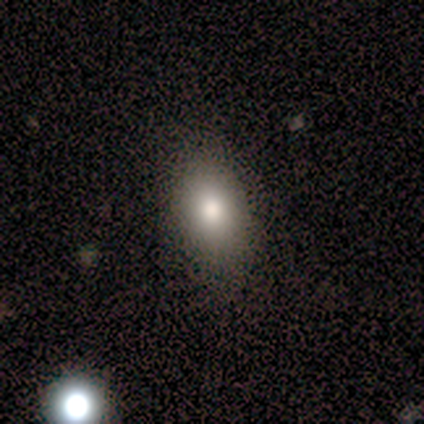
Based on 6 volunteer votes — This appears to be a smooth galaxy with no disk features (83%) that is in between round and cigar-shaped (80%). Merging: none (100%).